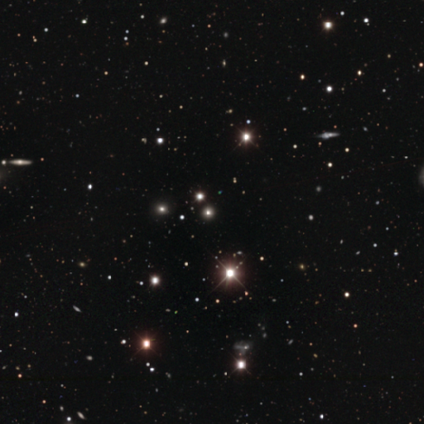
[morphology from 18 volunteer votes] Smooth or featured?
  - star or artifact: 72% *
  - smooth: 28%
  - featured or disk: 0%